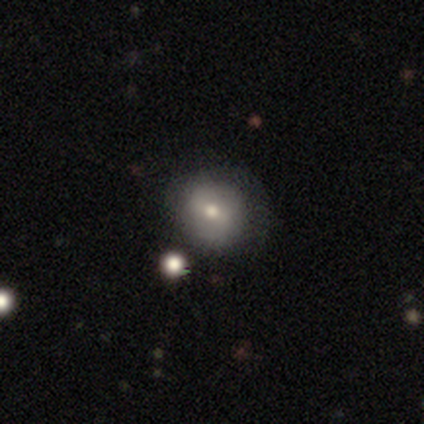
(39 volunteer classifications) A smooth galaxy with no disk features (46%) that is round (89%).

Vote fractions:
- Smooth or featured? smooth: 46% / featured or disk: 38% / star or artifact: 15%
- How rounded? round: 89% / in between: 11% / cigar-shaped: 0%
- Merging? none: 70% / minor disturbance: 18% / major disturbance: 9% / merger: 3%